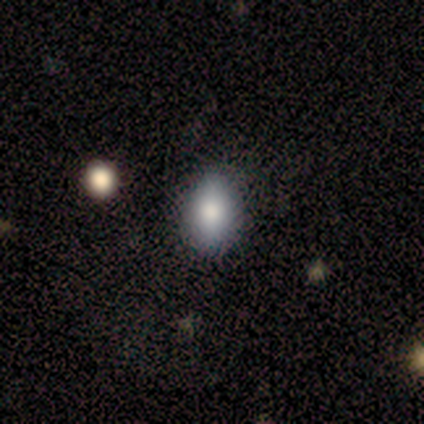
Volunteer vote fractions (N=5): Volunteers were most divided on "merging": none: 60%, minor disturbance: 40%, major disturbance: 0%, merger: 0%. More confident: smooth or featured — smooth (100%); how rounded — in between (100%).